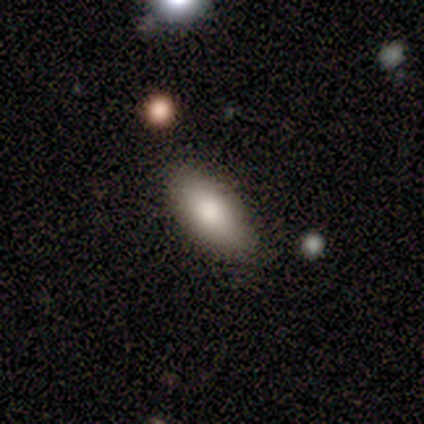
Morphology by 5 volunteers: Volunteers were most divided on "smooth or featured": smooth: 60%, featured or disk: 40%, star or artifact: 0%. More confident: how rounded — in between (100%); merging — none (100%).